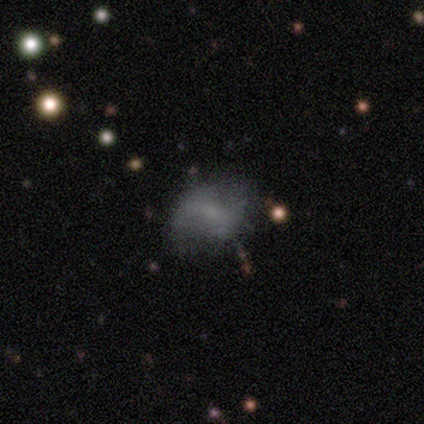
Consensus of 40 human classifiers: A featured or disk galaxy (52%) with no bar (45%), no spiral arms (65%) and no central bulge (75%). Merging: none (31%).